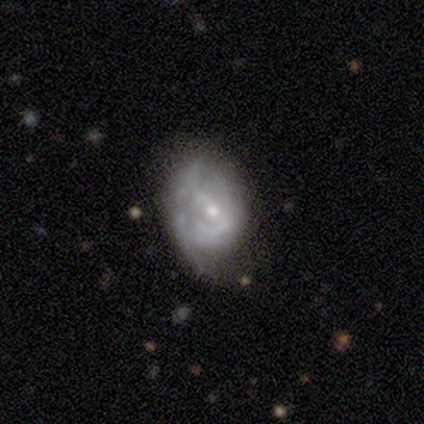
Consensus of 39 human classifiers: Morphology: type=featured or disk (74%); edge-on=no (97%); bar=no (57%); spiral arms=yes (71%); winding=tight (60%); arm count=can't tell (50%); bulge=small (71%); merging=none (58%).